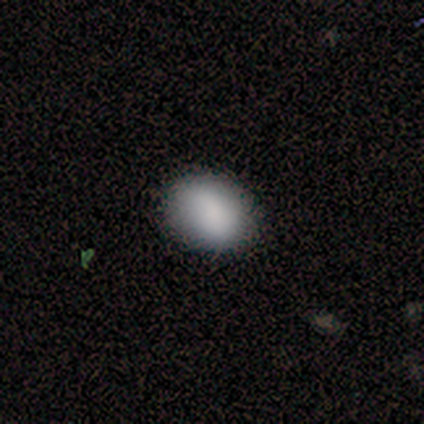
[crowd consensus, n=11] smooth-or-featured: smooth: 91% | featured or disk: 9% | star or artifact: 0%
  how-rounded: in between: 60% | round: 40% | cigar-shaped: 0%
  merging: none: 82% | minor disturbance: 9% | major disturbance: 9% | merger: 0%